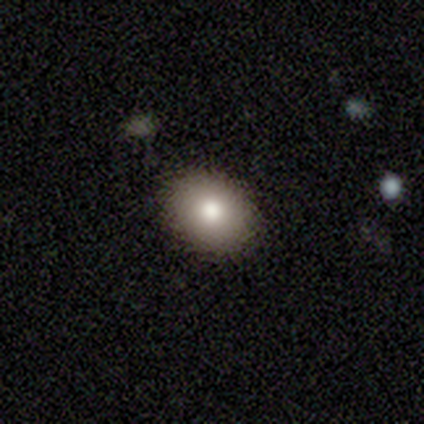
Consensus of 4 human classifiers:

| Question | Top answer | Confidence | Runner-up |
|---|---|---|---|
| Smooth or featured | smooth | 75% | featured or disk (25%) |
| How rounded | in between | 100% | — |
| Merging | none | 100% | — |